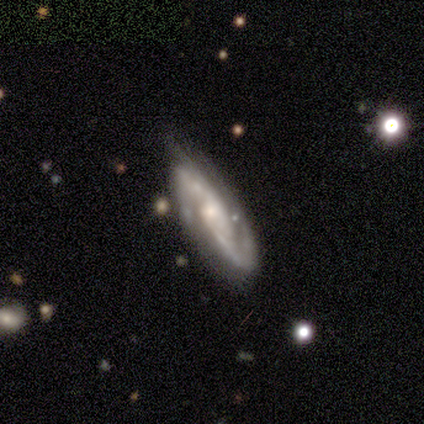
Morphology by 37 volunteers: This is clearly a featured or disk galaxy (84%). It is clearly not viewed edge-on (90%). Bar: possibly no (54%). Spiral arm pattern: clearly yes (100%). Spiral arm count: likely 2 (75%). Spiral winding: likely medium (61%). Central bulge: possibly small (57%). Merging: possibly none (56%).